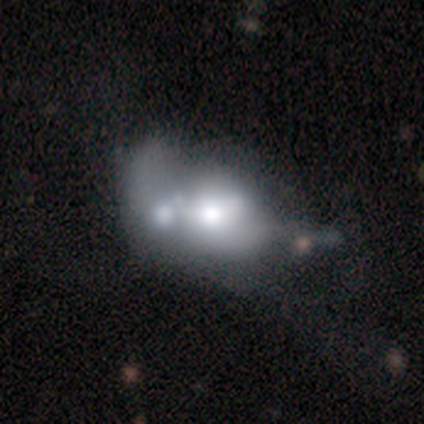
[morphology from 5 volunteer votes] type=featured or disk (60%); edge-on=no (67%); bar=no (100%); spiral arms=yes (50%, tied with no); winding=medium (100%); arm count=1 (100%); bulge=moderate (100%); merging=none (40%, tied with merger).